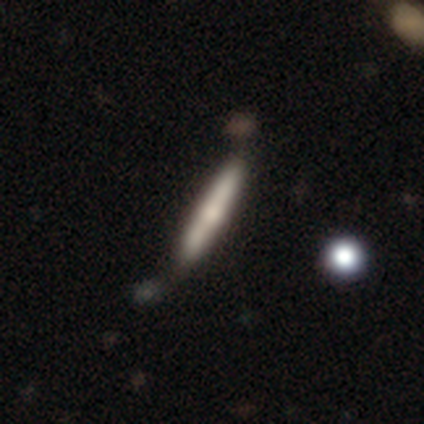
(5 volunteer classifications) Overall: featured or disk (60%; smooth 40%). Edge-on disk: yes (67%; no 33%). Edge-on bulge: rounded (100%). Merging: none (60%; minor disturbance 40%).